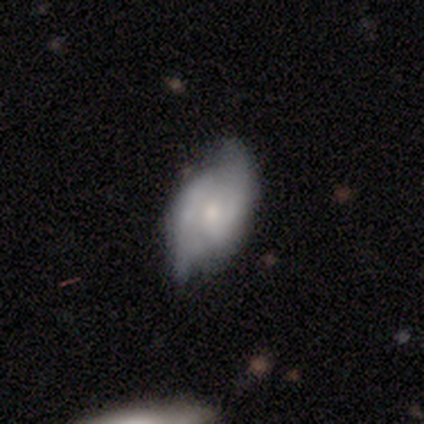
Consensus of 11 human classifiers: This is clearly a featured or disk galaxy (82%). It is clearly not viewed edge-on (100%). Bar: likely no (78%). Spiral arm pattern: likely yes (67%). Spiral arm count: clearly 2 (100%). Spiral winding: possibly medium (50%). Central bulge: possibly small (56%). Merging: possibly none (55%).